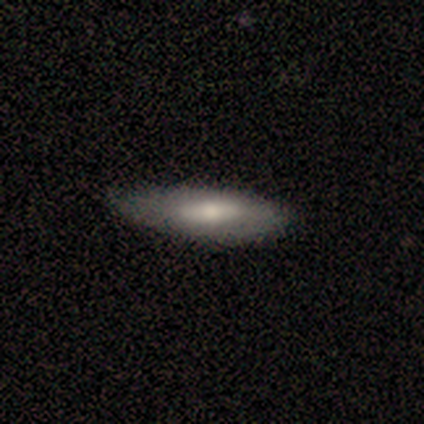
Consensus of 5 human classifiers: A smooth galaxy with no disk features (60%) that is in between round and cigar-shaped (100%).

Vote fractions:
- Smooth or featured? smooth: 60% / featured or disk: 40% / star or artifact: 0%
- How rounded? in between: 100% / round: 0% / cigar-shaped: 0%
- Merging? none: 40% (tied) / minor disturbance: 40% (tied) / merger: 20% / major disturbance: 0%